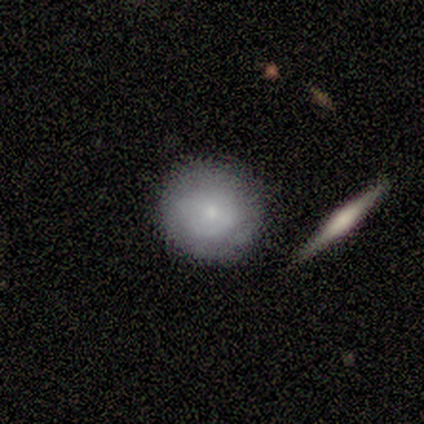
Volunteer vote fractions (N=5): Smooth or featured? smooth (60%)
How rounded? round (67%)
Merging? none (40%)